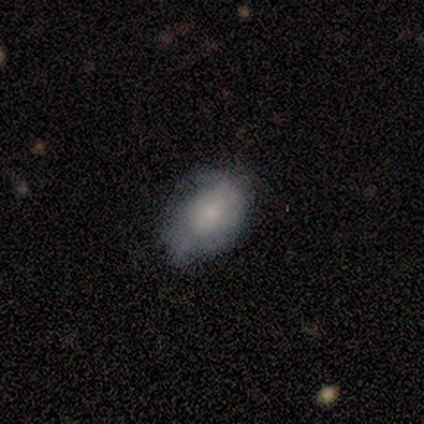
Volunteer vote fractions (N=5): Smooth or featured? 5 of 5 (100%) said smooth. How rounded? 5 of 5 (100%) said in between. Merging? 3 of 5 (60%) said minor disturbance.